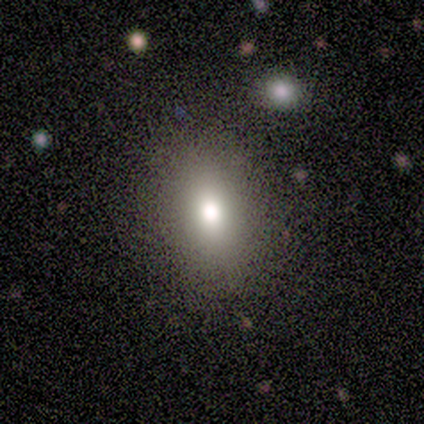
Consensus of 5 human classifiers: Smooth or featured? 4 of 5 (80%) said smooth. How rounded? 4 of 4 (100%) said in between. Merging? 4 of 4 (100%) said none.